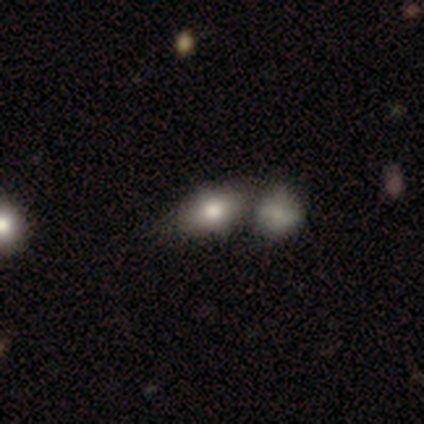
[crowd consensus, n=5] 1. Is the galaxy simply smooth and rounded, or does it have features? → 60% smooth, 40% star or artifact, 0% featured or disk.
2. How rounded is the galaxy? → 67% in between, 33% round, 0% cigar-shaped.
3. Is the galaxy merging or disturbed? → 67% merger, 33% none, 0% minor disturbance, 0% major disturbance.